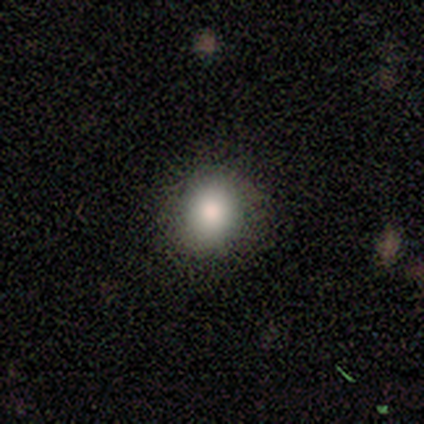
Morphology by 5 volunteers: smooth-or-featured: smooth: 100% | featured or disk: 0% | star or artifact: 0%
  how-rounded: round: 100% | in between: 0% | cigar-shaped: 0%
  merging: none: 100% | minor disturbance: 0% | major disturbance: 0% | merger: 0%